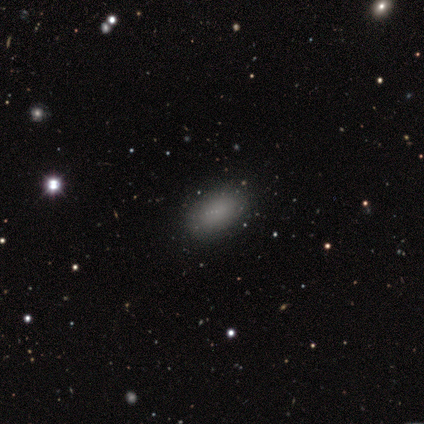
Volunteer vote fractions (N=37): A smooth galaxy with no disk features (84%) that is in between round and cigar-shaped (87%). Merging: none (85%).